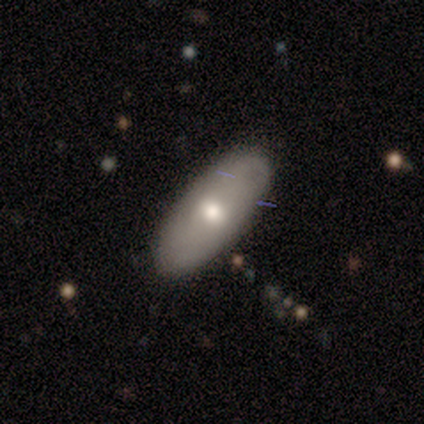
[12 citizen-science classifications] Q: Smooth or featured?
A: smooth (75%); runner-up: featured or disk (25%)
Q: How rounded?
A: in between (100%)
Q: Merging?
A: none (83%); runner-up: minor disturbance (17%)